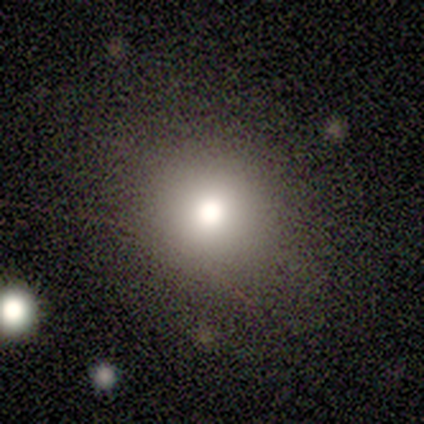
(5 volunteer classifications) Overall: smooth (100%). How rounded: round (60%; in between 40%). Merging: none (100%).